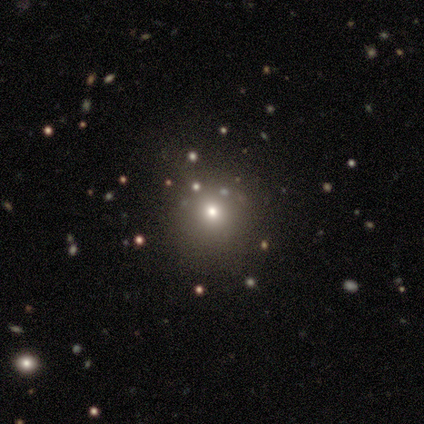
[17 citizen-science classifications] A smooth galaxy with no disk features (71%) that is round (100%). Merging: none (83%).